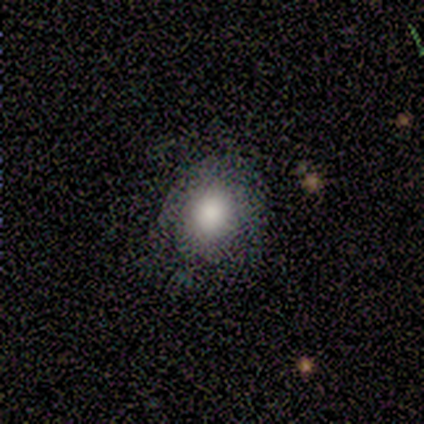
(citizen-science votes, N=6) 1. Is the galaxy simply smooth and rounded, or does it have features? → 83% smooth, 17% featured or disk, 0% star or artifact.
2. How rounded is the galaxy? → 60% round, 40% in between, 0% cigar-shaped.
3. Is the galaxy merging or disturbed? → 67% none, 17% minor disturbance, 17% merger, 0% major disturbance.